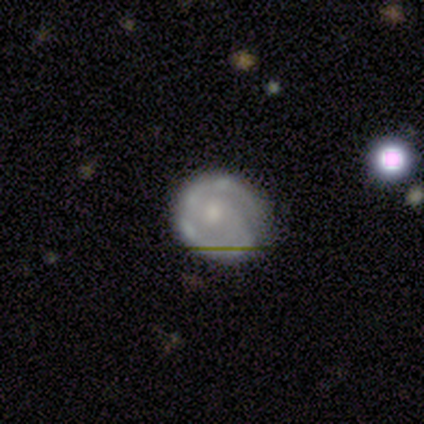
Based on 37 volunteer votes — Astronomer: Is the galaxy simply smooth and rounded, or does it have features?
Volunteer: featured or disk — 68%.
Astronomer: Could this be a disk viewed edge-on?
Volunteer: no — 96%.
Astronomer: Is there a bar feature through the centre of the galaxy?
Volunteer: no — 62%.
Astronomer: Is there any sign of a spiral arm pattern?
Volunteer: yes — 79%.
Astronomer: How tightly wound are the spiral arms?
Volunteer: tight — 47% (runner-up: medium, 26%).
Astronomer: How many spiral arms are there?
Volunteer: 2 — 63%.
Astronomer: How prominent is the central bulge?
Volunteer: small — 54%.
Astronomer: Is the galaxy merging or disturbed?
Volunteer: none — 56%.